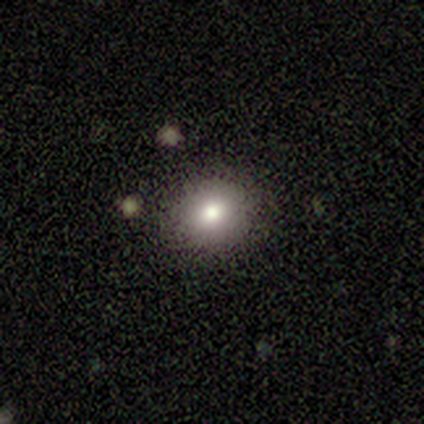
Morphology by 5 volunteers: Q: Smooth or featured?
A: smooth (100%)
Q: How rounded?
A: round (80%); runner-up: in between (20%)
Q: Merging?
A: none (100%)